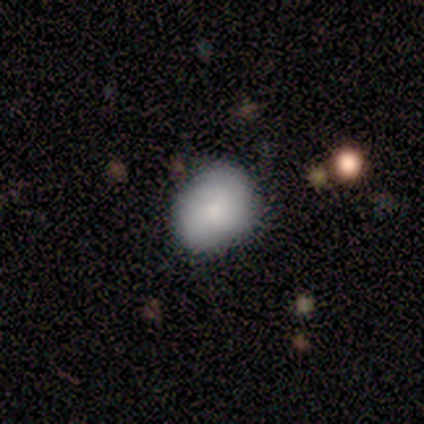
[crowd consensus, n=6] Volunteers were most divided on "merging" (2-way tie): none: 50%, minor disturbance: 50%, major disturbance: 0%, merger: 0%. More confident: smooth or featured — smooth (83%); how rounded — in between (80%).